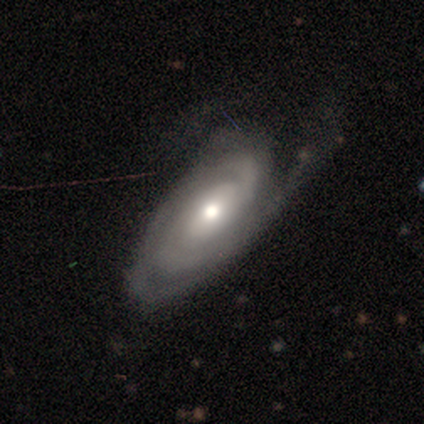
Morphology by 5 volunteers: A featured or disk galaxy (100%) with no bar (75%), 2 (33%, tied with 3 and can't tell) tight (67%) spiral arms (75%) and a moderate central bulge (50%). Merging: none (40%, tied with major disturbance).